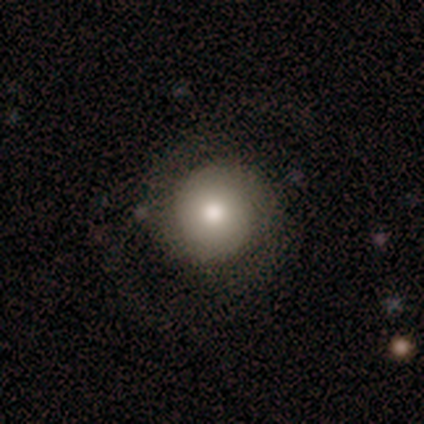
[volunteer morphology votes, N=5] This is clearly a smooth galaxy (80%). How rounded: clearly round (100%). Merging: likely none (60%).